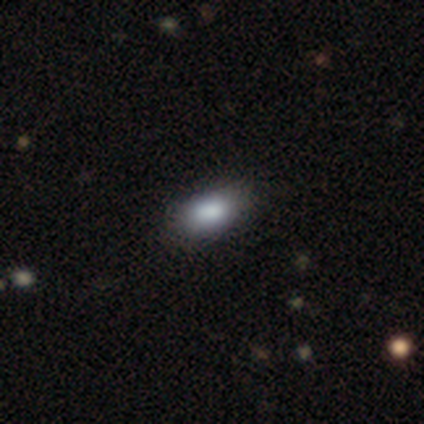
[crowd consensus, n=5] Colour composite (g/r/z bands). It shows a smooth galaxy with no disk features (60%) that is in between round and cigar-shaped (100%). Merging: none (67%).